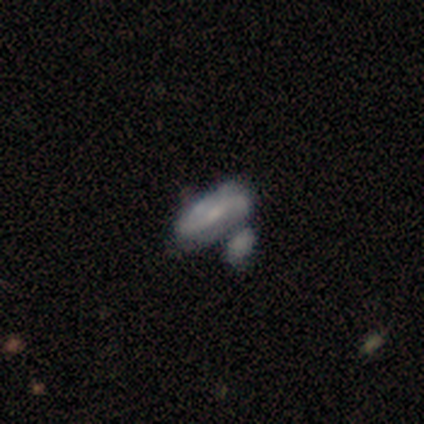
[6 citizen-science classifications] A smooth galaxy with no disk features (33%, tied with featured or disk and star or artifact) that is in between round and cigar-shaped (100%). Merging: minor disturbance (50%).